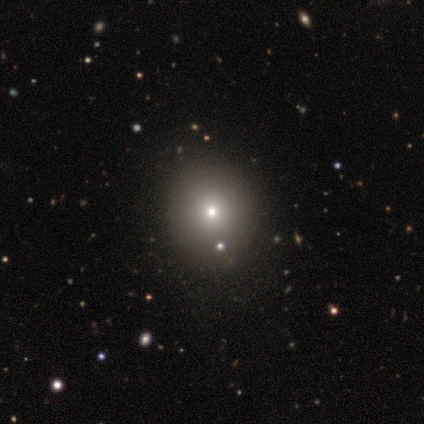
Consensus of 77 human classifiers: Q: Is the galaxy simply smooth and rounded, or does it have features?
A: smooth — 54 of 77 (70%).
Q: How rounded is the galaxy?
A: round — 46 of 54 (85%).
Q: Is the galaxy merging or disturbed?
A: none — 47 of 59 (80%).